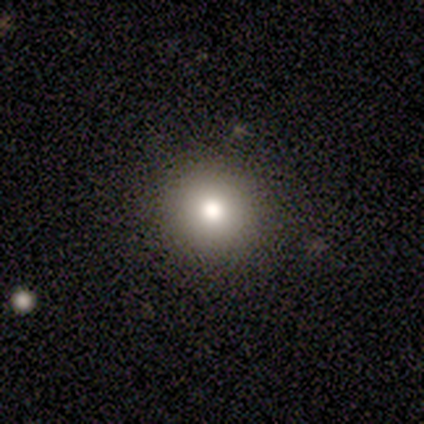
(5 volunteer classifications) Smooth or featured? 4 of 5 (80%) said smooth. How rounded? 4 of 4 (100%) said round. Merging? 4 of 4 (100%) said none.